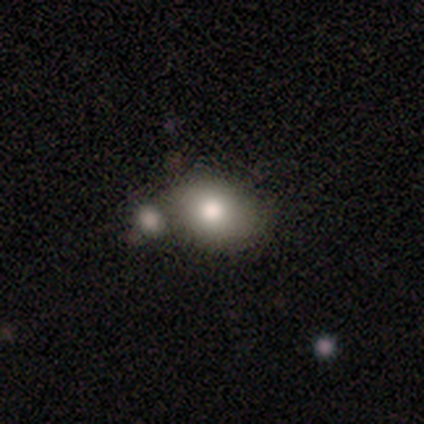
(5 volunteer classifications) Smooth or featured? smooth (60%)
How rounded? in between (67%)
Merging? none (100%)